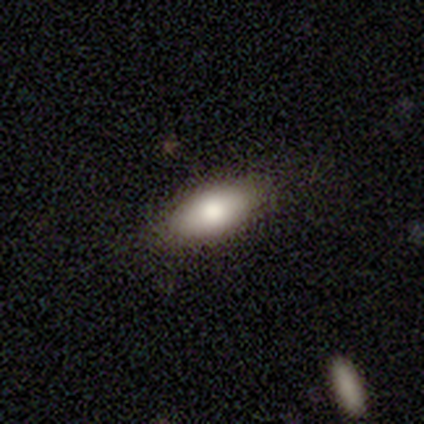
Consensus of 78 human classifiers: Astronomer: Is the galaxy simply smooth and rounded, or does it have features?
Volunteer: smooth — 88%.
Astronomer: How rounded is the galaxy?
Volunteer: in between — 99%.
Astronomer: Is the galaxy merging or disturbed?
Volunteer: none — 53%.